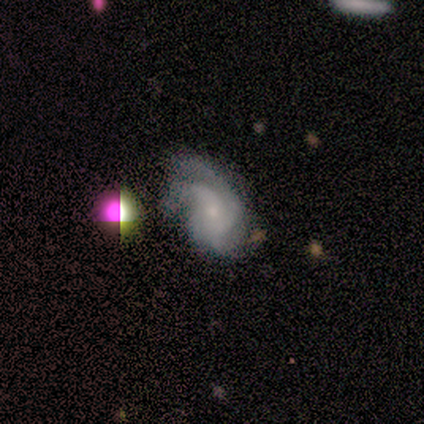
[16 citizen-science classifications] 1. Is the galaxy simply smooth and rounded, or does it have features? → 81% featured or disk, 12% smooth, 6% star or artifact.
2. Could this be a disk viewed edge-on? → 100% no, 0% yes.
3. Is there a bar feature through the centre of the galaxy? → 69% no, 23% weak, 8% strong.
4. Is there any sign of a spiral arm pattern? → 100% yes, 0% no.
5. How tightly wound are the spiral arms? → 38% medium (tied), 38% loose (tied), 23% tight.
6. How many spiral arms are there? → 54% 3, 23% can't tell, 15% 2, 8% 1, 0% 4, 0% more than 4.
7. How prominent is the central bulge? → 62% small, 38% moderate, 0% dominant, 0% large, 0% none.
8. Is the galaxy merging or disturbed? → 40% none (tied), 40% minor disturbance (tied), 20% major disturbance, 0% merger.